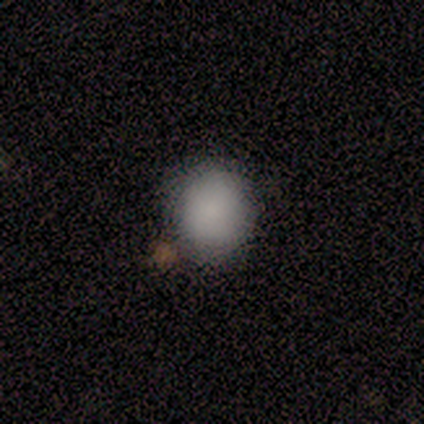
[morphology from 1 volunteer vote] Smooth or featured?
  - smooth: 100% *
  - featured or disk: 0%
  - star or artifact: 0%
How rounded?
  - in between: 100% *
  - round: 0%
  - cigar-shaped: 0%
Merging?
  - none: 100% *
  - minor disturbance: 0%
  - major disturbance: 0%
  - merger: 0%